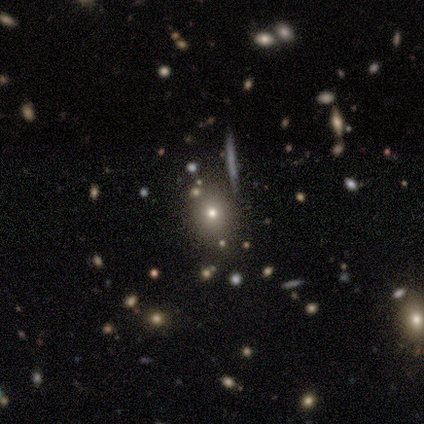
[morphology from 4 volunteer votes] Overall: smooth (50%; featured or disk 25%). How rounded: round (50%, tied with in between). Merging: none (67%; merger 33%).